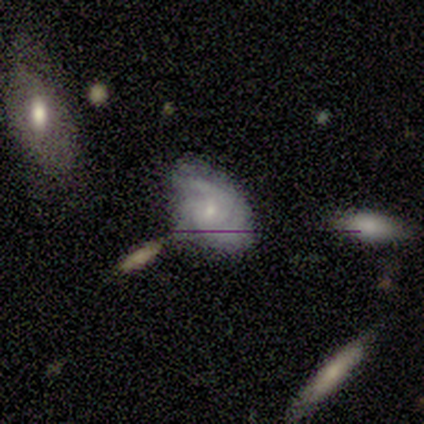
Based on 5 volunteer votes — smooth 80%, featured or disk 20%, star or artifact 0%. Down the decision tree: how rounded — in between (75%); merging — none (40%, tied with major disturbance).